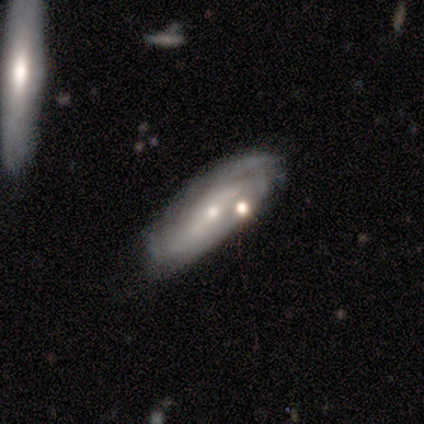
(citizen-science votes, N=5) Smooth or featured? featured or disk (80%)
Edge-on disk? no (75%)
Bar? weak (67%)
Spiral arms? yes (67%)
Spiral winding? medium (100%)
Spiral arm count? 2 (50%, tied with can't tell)
Bulge size? small (100%)
Merging? none (60%)